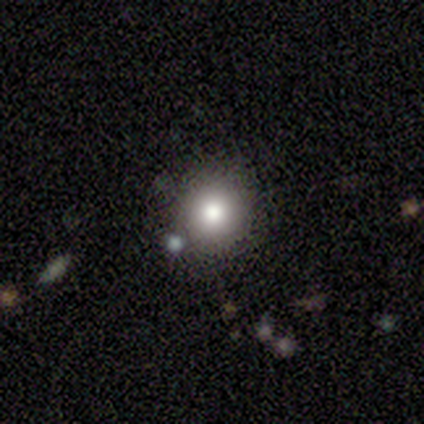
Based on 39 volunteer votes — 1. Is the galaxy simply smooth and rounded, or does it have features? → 74% smooth, 18% star or artifact, 8% featured or disk.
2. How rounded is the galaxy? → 100% round, 0% in between, 0% cigar-shaped.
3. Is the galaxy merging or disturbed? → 81% none, 9% minor disturbance, 6% merger, 3% major disturbance.